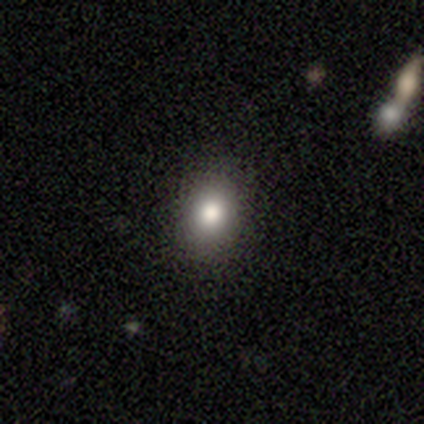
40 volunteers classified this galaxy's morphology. Overall: smooth (78%). How rounded: in between (55%; round 45%). Merging: none (92%).